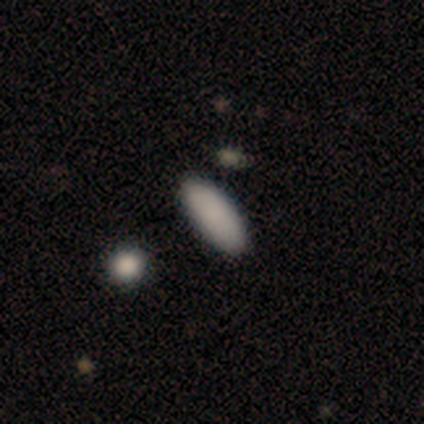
Morphology: type=smooth (100%); roundness=in between (80%); merging=none (80%).